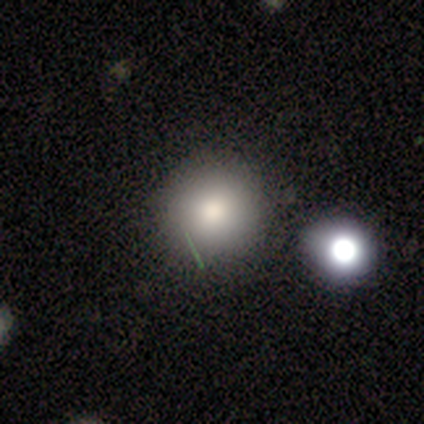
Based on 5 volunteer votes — Volunteers were most divided on "merging": none: 60%, minor disturbance: 20%, major disturbance: 20%, merger: 0%. More confident: how rounded — round (100%); smooth or featured — smooth (80%).